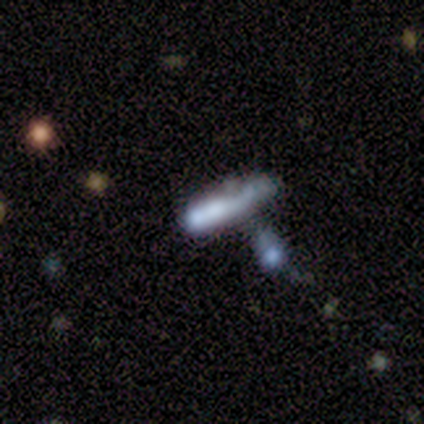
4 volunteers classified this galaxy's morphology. smooth_or_featured: smooth (p=0.75) [alt: featured or disk p=0.25]
how_rounded: cigar-shaped (p=1.00)
merging: minor disturbance (p=0.50) [alt: none p=0.25]